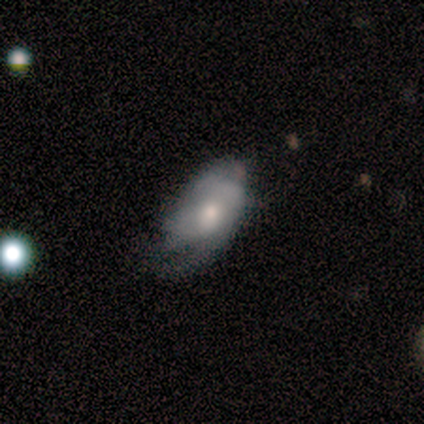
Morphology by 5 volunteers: Overall: smooth (80%). How rounded: in between (75%). Merging: major disturbance (60%; minor disturbance 40%).